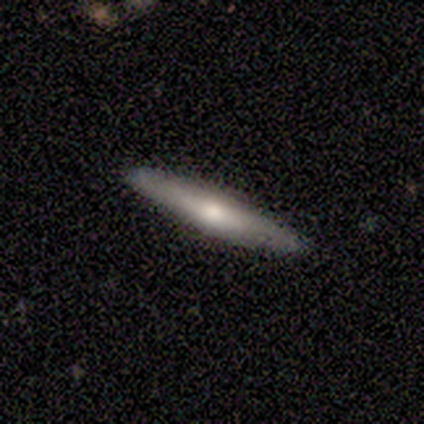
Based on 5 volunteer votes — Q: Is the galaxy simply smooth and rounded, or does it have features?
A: featured or disk — 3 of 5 (60%).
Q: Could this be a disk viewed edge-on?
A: yes — 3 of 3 (100%).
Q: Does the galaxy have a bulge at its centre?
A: rounded — 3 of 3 (100%).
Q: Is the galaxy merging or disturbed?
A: none — 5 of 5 (100%).